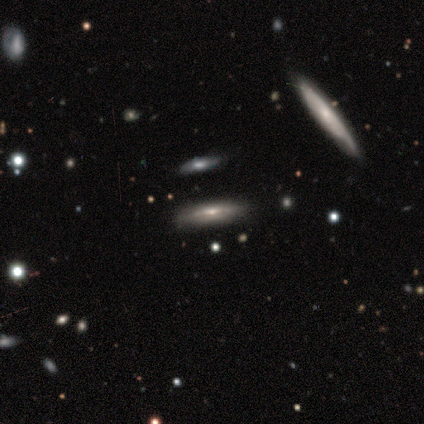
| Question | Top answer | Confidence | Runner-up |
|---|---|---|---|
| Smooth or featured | featured or disk | 55% | smooth (29%) |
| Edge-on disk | yes | 81% | no (19%) |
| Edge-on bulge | rounded | 59% | none (29%) |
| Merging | none | 88% | merger (6%) |